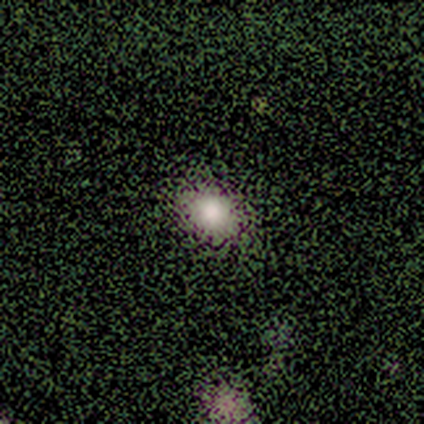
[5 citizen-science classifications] A smooth galaxy with no disk features (80%) that is round (75%). Merging: none (80%).